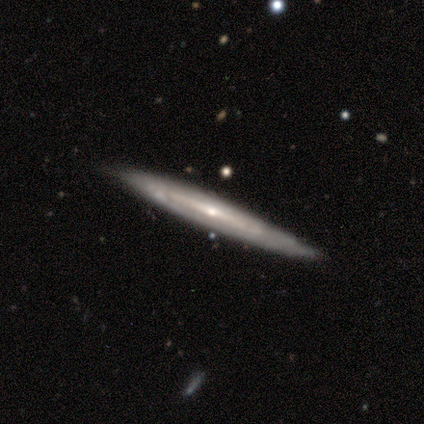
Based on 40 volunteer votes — A featured or disk galaxy (70%) viewed edge-on (86%) with a rounded central bulge (62%). Merging: none (90%).